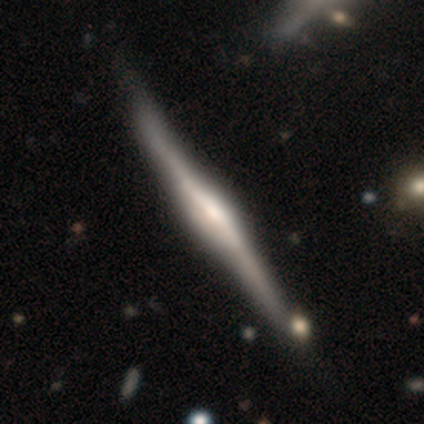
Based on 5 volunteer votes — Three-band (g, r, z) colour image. It shows a featured or disk galaxy (80%) viewed edge-on (100%) with a boxy central bulge (50%, tied with rounded). Merging: none (60%).